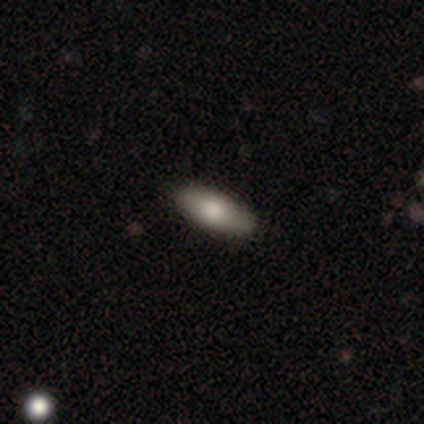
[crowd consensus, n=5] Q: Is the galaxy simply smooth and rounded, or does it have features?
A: smooth — 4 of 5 (80%).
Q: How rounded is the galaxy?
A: in between — 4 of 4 (100%).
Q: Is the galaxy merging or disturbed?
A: none — 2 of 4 (50%, tied with minor disturbance).